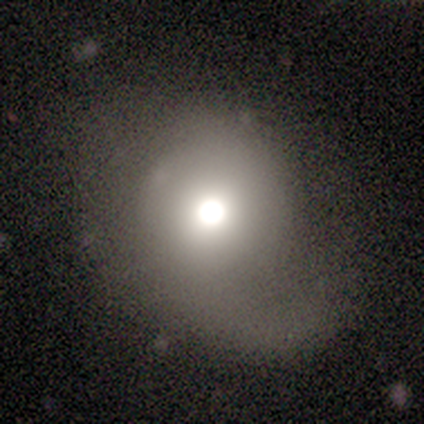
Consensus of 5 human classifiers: Overall: smooth (60%; featured or disk 40%). How rounded: round (100%). Merging: none (40%, tied with minor disturbance).